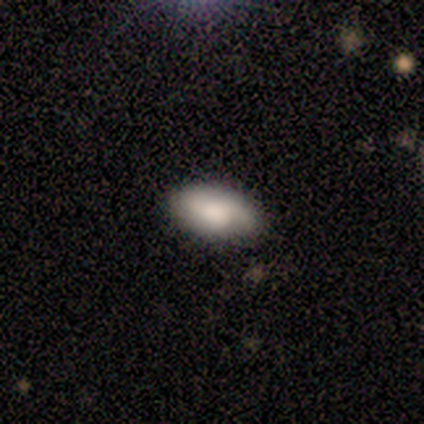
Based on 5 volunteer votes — Smooth or featured?
  - featured or disk: 80% *
  - star or artifact: 20%
  - smooth: 0%
Edge-on disk?
  - no: 100% *
  - yes: 0%
Bar?
  - no: 100% *
  - strong: 0%
  - weak: 0%
Spiral arms?
  - yes: 75% *
  - no: 25%
Spiral winding?
  - tight: 33% * (tied)
  - medium: 33% * (tied)
  - loose: 33% * (tied)
Spiral arm count?
  - can't tell: 67% *
  - 1: 33%
  - 2: 0%
  - 3: 0%
  - 4: 0%
  - more than 4: 0%
Bulge size?
  - large: 50% * (tied)
  - small: 50% * (tied)
  - dominant: 0%
  - moderate: 0%
  - none: 0%
Merging?
  - none: 100% *
  - minor disturbance: 0%
  - major disturbance: 0%
  - merger: 0%